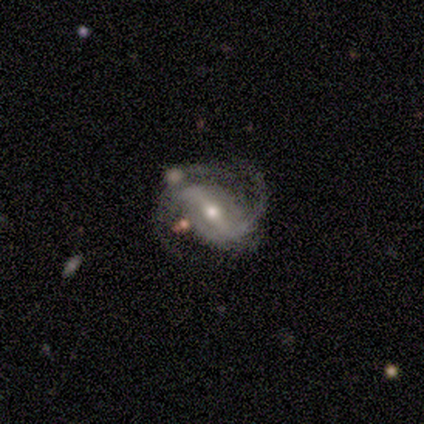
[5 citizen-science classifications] Morphology: type=featured or disk (100%); edge-on=no (100%); bar=strong (100%); spiral arms=yes (100%); winding=medium (80%); arm count=2 (100%); bulge=moderate (80%); merging=none (60%).